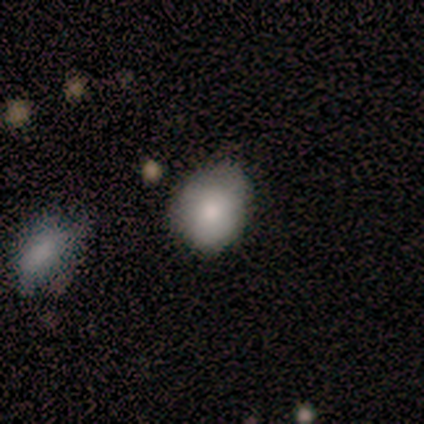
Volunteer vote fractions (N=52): This is clearly a smooth galaxy (87%). How rounded: possibly round (56%). Merging: likely none (64%).